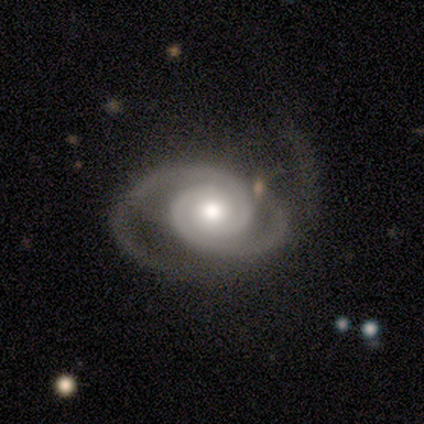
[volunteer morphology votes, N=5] Volunteers were most divided on "spiral winding": medium: 60%, tight: 40%, loose: 0%. More confident: smooth or featured — featured or disk (100%); edge-on disk — no (100%); spiral arms — yes (100%); bar — no (80%); spiral arm count — 2 (80%); bulge size — moderate (60%); merging — none (60%).